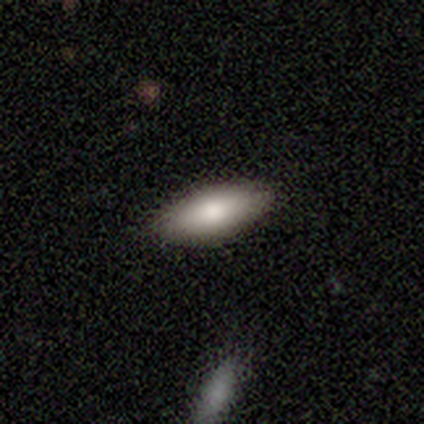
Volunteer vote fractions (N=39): smooth_or_featured: smooth (p=0.82) [alt: featured or disk p=0.15]
how_rounded: in between (p=0.84) [alt: cigar-shaped p=0.16]
merging: none (p=0.92) [alt: minor disturbance p=0.05]